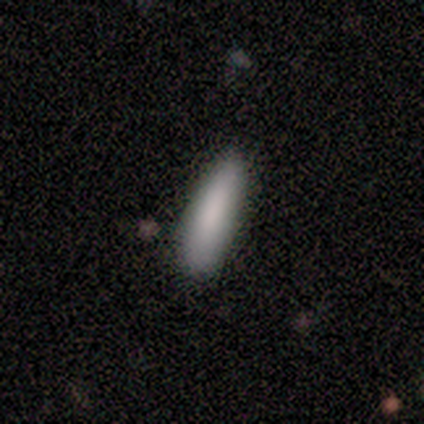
Overall: smooth (100%). How rounded: cigar-shaped (71%). Merging: none (57%; minor disturbance 43%).